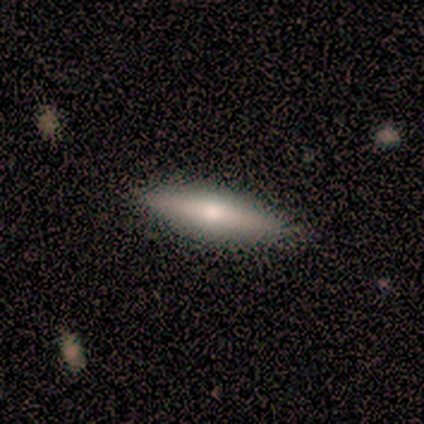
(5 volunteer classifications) smooth-or-featured: featured or disk: 80% | smooth: 20% | star or artifact: 0%
  disk-edge-on: yes: 100% | no: 0%
    edge-on-bulge: rounded: 100% | boxy: 0% | none: 0%
  merging: none: 80% | major disturbance: 20% | minor disturbance: 0% | merger: 0%